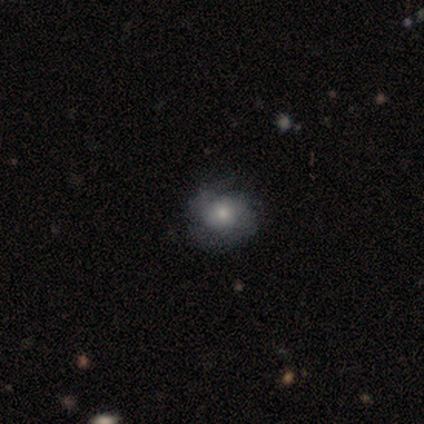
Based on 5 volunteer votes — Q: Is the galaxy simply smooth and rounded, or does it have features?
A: smooth — 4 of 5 (80%).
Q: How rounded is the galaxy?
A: round — 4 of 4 (100%).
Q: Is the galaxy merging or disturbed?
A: none — 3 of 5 (60%).